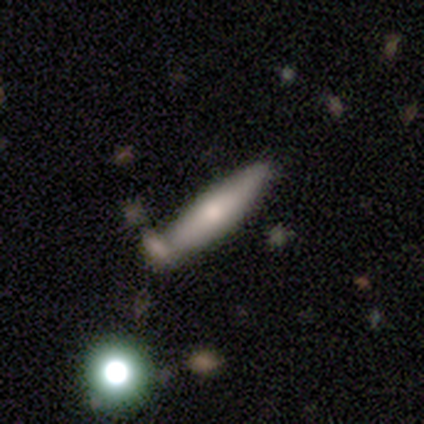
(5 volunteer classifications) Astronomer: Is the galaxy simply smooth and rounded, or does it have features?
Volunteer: featured or disk — 60% (runner-up: smooth, 40%).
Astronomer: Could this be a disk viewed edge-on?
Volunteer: yes — 100%.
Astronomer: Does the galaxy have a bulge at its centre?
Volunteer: rounded — 67%.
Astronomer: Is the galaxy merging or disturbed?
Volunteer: none — 100%.